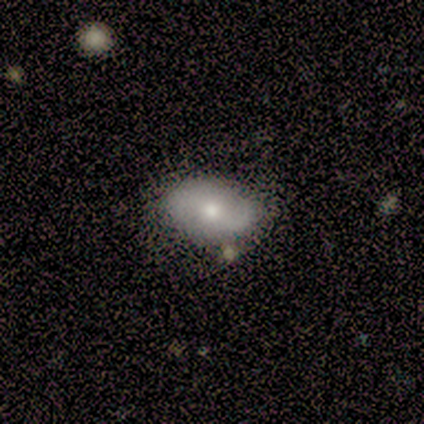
Q: Smooth or featured?
A: smooth (60%); runner-up: featured or disk (40%)
Q: How rounded?
A: in between (100%)
Q: Merging?
A: none (80%); runner-up: minor disturbance (20%)